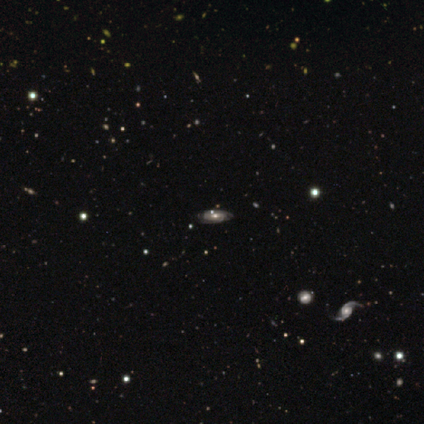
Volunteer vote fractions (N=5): Smooth or featured?
  - featured or disk: 80% *
  - smooth: 20%
  - star or artifact: 0%
Edge-on disk?
  - no: 100% *
  - yes: 0%
Bar?
  - no: 100% *
  - strong: 0%
  - weak: 0%
Spiral arms?
  - yes: 50% * (tied)
  - no: 50% * (tied)
Spiral winding?
  - tight: 50% * (tied)
  - medium: 50% * (tied)
  - loose: 0%
Spiral arm count?
  - can't tell: 100% *
  - 1: 0%
  - 2: 0%
  - 3: 0%
  - 4: 0%
  - more than 4: 0%
Bulge size?
  - moderate: 75% *
  - small: 25%
  - dominant: 0%
  - large: 0%
  - none: 0%
Merging?
  - none: 100% *
  - minor disturbance: 0%
  - major disturbance: 0%
  - merger: 0%